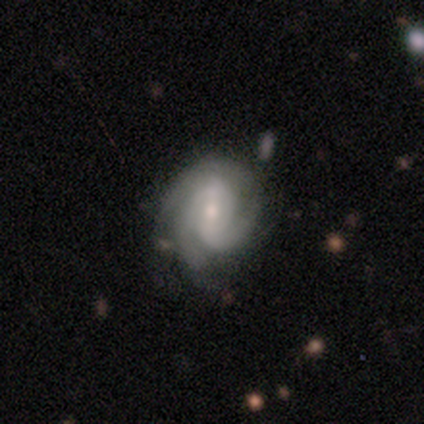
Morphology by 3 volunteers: Smooth or featured? 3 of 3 (100%) said featured or disk. Edge-on disk? 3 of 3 (100%) said no. Bar? 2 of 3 (67%) said no. Spiral arms? 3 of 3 (100%) said yes. Spiral winding? 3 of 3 (100%) said tight. Spiral arm count? 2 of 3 (67%) said 2. Bulge size? 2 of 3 (67%) said small. Merging? 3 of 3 (100%) said none.